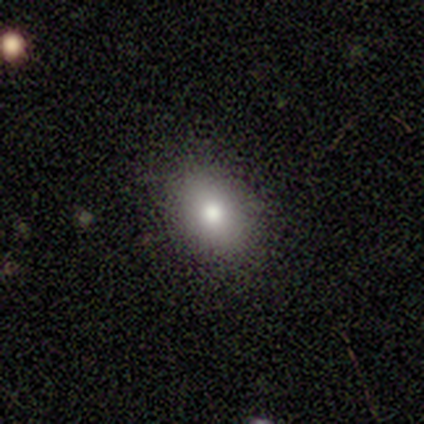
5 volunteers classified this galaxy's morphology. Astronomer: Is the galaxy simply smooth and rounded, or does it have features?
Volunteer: smooth — 80%.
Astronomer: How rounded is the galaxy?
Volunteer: in between — 100%.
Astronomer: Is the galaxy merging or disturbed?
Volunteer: none — 75%.